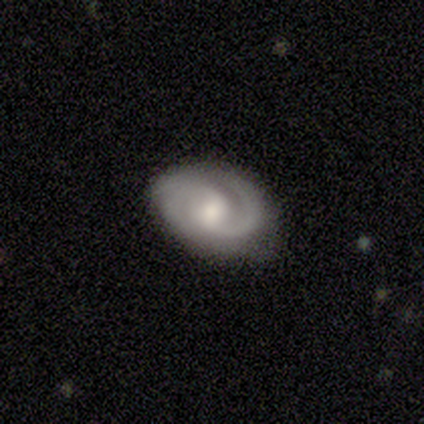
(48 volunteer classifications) featured or disk 77%, smooth 17%, star or artifact 6%. Down the decision tree: edge-on disk — no (97%); bar — no (53%); spiral arms — yes (100%); spiral arm count — 2 (83%); spiral winding — tight (56%); bulge size — moderate (67%); merging — none (69%).